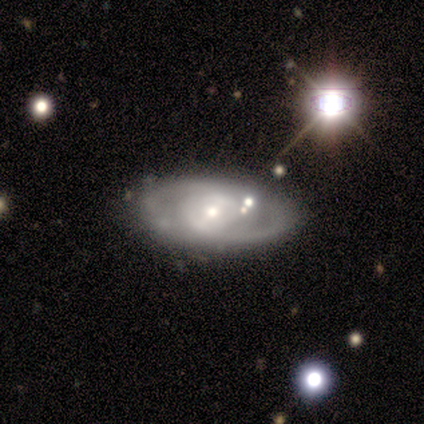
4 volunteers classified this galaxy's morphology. smooth-or-featured: featured or disk: 75% | star or artifact: 25% | smooth: 0%
  disk-edge-on: no: 100% | yes: 0%
    bar: no: 67% | weak: 33% | strong: 0%
    has-spiral-arms: no: 67% | yes: 33%
    bulge-size: small: 100% | dominant: 0% | large: 0% | moderate: 0% | none: 0%
  merging: none: 100% | minor disturbance: 0% | major disturbance: 0% | merger: 0%